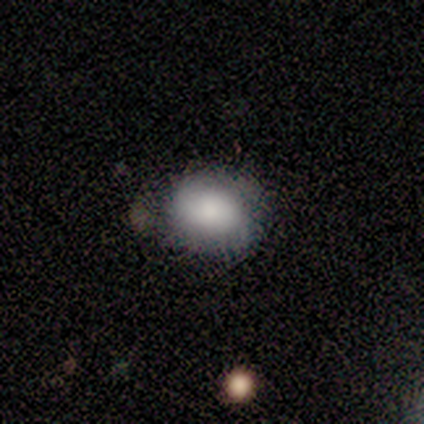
A featured or disk galaxy (60%) with no bar (100%), 2 (100%) tight (100%) spiral arms (50%, tied with no) and a large central bulge (50%, tied with none). Merging: none (40%, tied with minor disturbance).